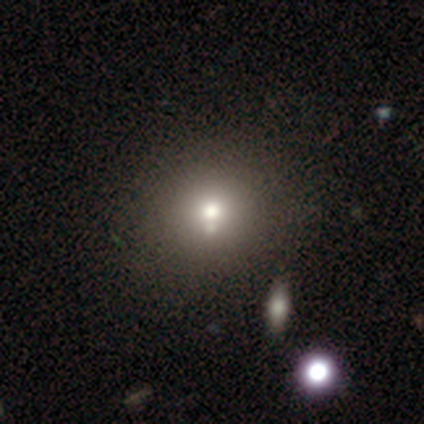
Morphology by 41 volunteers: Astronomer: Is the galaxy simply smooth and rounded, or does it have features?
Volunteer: smooth — 76%.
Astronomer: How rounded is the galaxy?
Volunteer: round — 84%.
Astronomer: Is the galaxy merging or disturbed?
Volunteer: none — 57%.